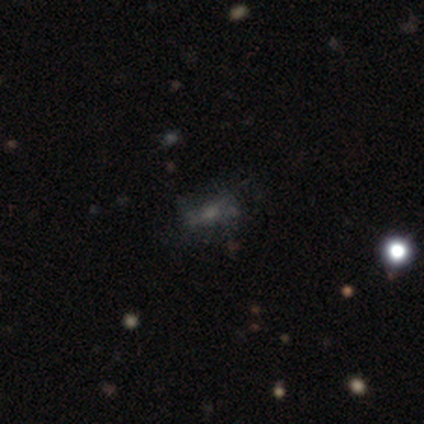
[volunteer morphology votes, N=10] Smooth or featured? smooth (50%)
How rounded? in between (80%)
Merging? none (33%, tied with minor disturbance)